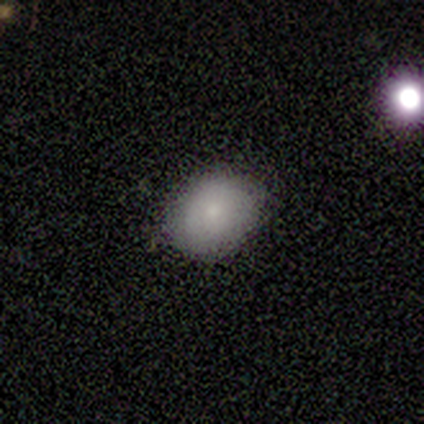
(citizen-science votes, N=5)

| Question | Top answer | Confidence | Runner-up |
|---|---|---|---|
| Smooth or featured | smooth | 80% | featured or disk (20%) |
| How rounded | round | 50% | tied: in between (50%) |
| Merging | none | 100% | — |